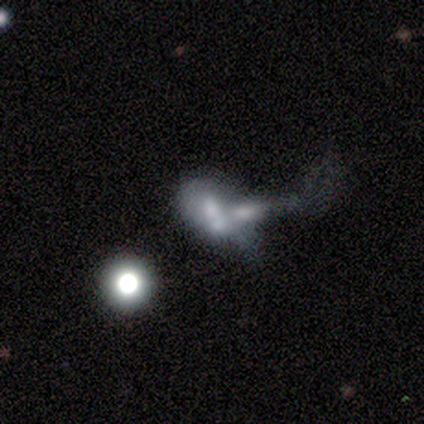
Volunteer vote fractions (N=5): A smooth galaxy with no disk features (60%) that is in between round and cigar-shaped (100%). Merging: merger (60%).